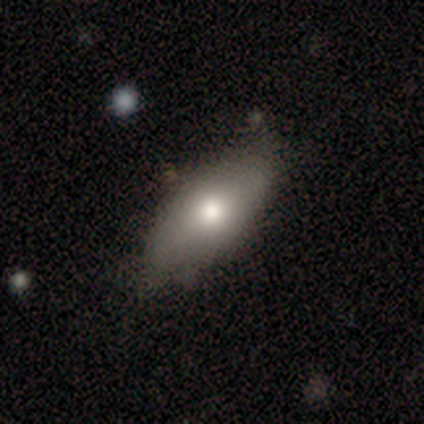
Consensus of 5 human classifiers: Volunteers were most divided on "how rounded": in between: 67%, cigar-shaped: 33%, round: 0%. More confident: merging — none (75%); smooth or featured — smooth (60%).